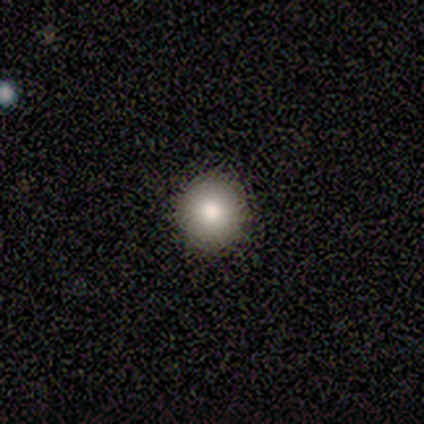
smooth-or-featured: smooth: 86% | star or artifact: 14% | featured or disk: 0%
  how-rounded: round: 83% | in between: 17% | cigar-shaped: 0%
  merging: none: 83% | minor disturbance: 17% | major disturbance: 0% | merger: 0%